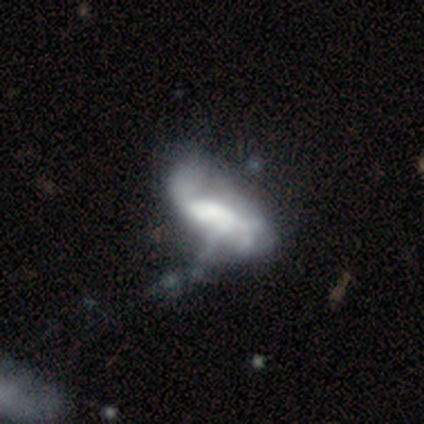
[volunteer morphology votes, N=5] smooth_or_featured: featured or disk (p=0.60) [alt: smooth p=0.40]
disk_edge_on: no (p=0.67) [alt: yes p=0.33]
bar: no (p=1.00)
has_spiral_arms: no (p=1.00)
bulge_size: dominant (p=0.50) [tied with: large p=0.50]
merging: major disturbance (p=0.60) [alt: none p=0.40]